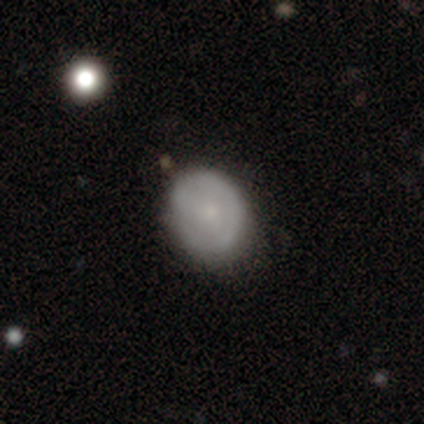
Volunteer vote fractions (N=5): Smooth or featured: smooth — 60% (featured or disk — 40%)
How rounded: round — 67% (in between — 33%)
Merging: none — 80% (major disturbance — 20%)